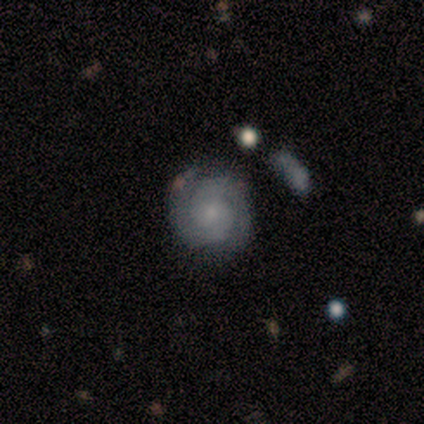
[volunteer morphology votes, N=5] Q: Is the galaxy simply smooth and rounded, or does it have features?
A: featured or disk — 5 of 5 (100%).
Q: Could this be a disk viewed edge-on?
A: no — 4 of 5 (80%).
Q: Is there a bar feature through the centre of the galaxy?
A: no — 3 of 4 (75%).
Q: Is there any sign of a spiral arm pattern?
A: yes — 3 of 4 (75%).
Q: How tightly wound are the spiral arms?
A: loose — 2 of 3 (67%).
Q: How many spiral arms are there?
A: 2 — 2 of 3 (67%).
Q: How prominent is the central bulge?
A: dominant — 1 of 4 (25%, tied with moderate, small and none).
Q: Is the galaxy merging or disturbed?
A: none — 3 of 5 (60%).